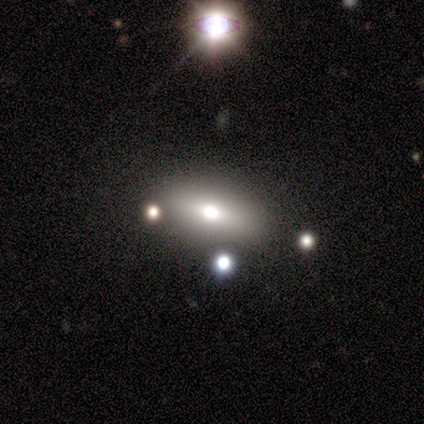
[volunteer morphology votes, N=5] This is likely a smooth galaxy (60%). How rounded: clearly in between (100%). Merging: likely minor disturbance (67%).